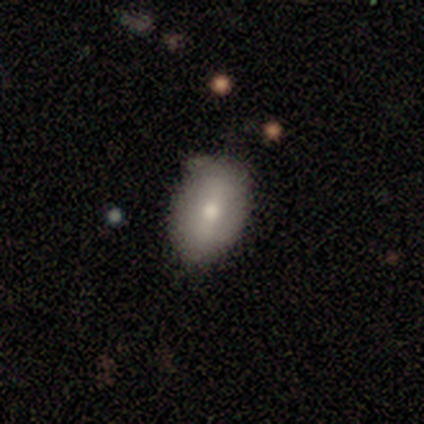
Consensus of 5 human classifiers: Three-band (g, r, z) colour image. It shows a smooth galaxy with no disk features (80%) that is in between round and cigar-shaped (100%). Merging: none (60%).